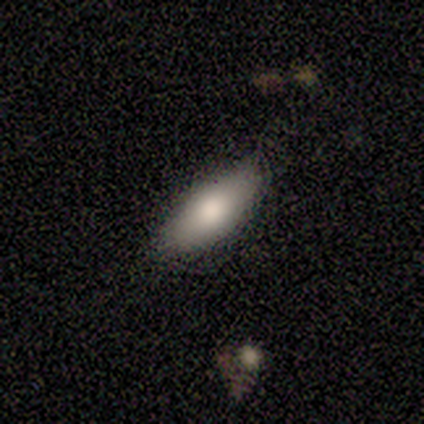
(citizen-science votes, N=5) This appears to be a smooth galaxy with no disk features (80%) that is in between round and cigar-shaped (75%). Merging: none (80%).